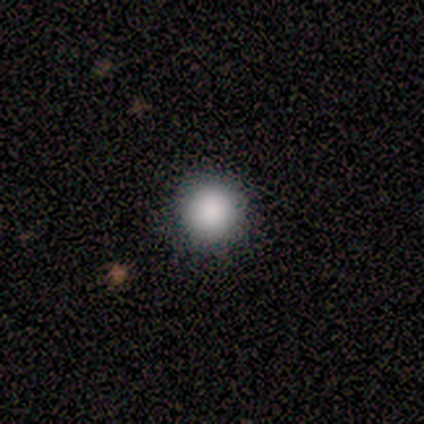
Q: Smooth or featured?
A: smooth (100%)
Q: How rounded?
A: round (100%)
Q: Merging?
A: none (100%)